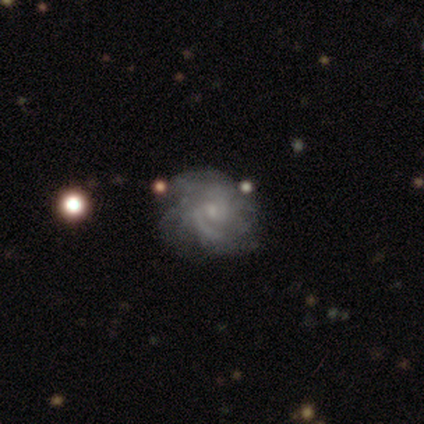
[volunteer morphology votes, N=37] Smooth or featured? featured or disk (78%)
Edge-on disk? no (100%)
Bar? no (72%)
Spiral arms? yes (93%)
Spiral winding? medium (52%)
Spiral arm count? 2 (41%, tied with can't tell)
Bulge size? small (83%)
Merging? none (66%)